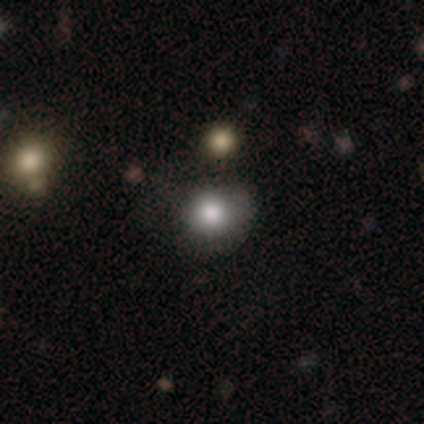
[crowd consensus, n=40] Overall: smooth (75%). How rounded: round (93%). Merging: none (70%).